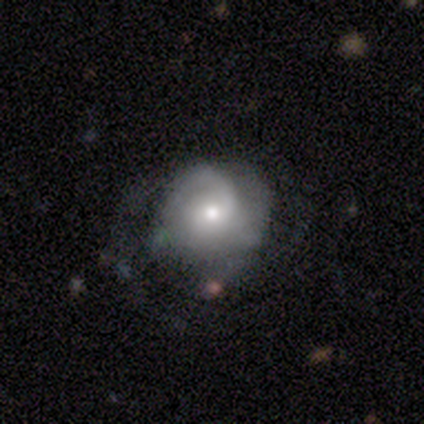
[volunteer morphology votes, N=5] Overall: featured or disk (80%). Edge-on disk: no (100%). Bar: no (100%). Spiral arms: yes (100%). Spiral arm count: 1 (75%). Spiral winding: tight (75%). Bulge size: small (100%). Merging: none (80%).